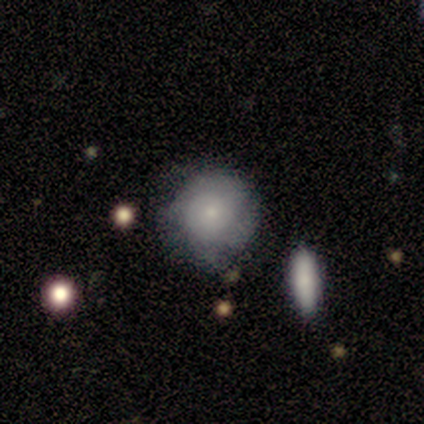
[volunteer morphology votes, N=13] Overall: featured or disk (46%; smooth 38%). Edge-on disk: no (83%). Bar: no (100%). Spiral arms: yes (80%). Spiral arm count: can't tell (100%). Spiral winding: tight (75%). Bulge size: small (60%; moderate 40%). Merging: none (82%).